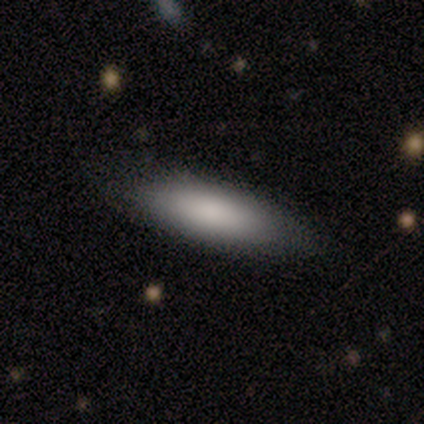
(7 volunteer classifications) Smooth or featured?
  - smooth: 100% *
  - featured or disk: 0%
  - star or artifact: 0%
How rounded?
  - in between: 57% *
  - cigar-shaped: 43%
  - round: 0%
Merging?
  - none: 86% *
  - minor disturbance: 14%
  - major disturbance: 0%
  - merger: 0%